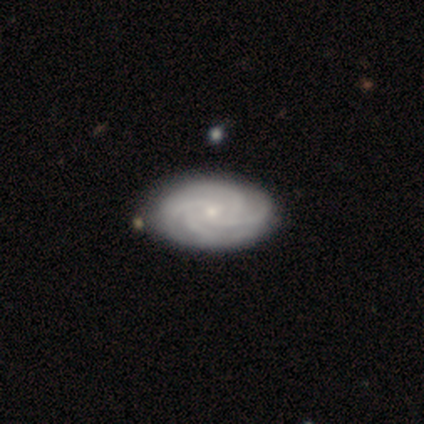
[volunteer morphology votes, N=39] smooth-or-featured: featured or disk: 90% | smooth: 8% | star or artifact: 3%
  disk-edge-on: no: 94% | yes: 6%
    bar: no: 76% | weak: 24% | strong: 0%
    has-spiral-arms: yes: 100% | no: 0%
      spiral-winding: tight: 79% | medium: 21% | loose: 0%
      spiral-arm-count: 4: 82% | can't tell: 9% | more than 4: 6% | 2: 3% | 1: 0% | 3: 0%
    bulge-size: small: 82% | moderate: 9% | none: 6% | large: 3% | dominant: 0%
  merging: none: 61% | minor disturbance: 11% | major disturbance: 5% | merger: 3%